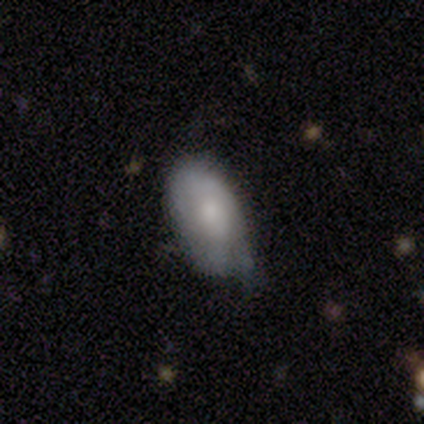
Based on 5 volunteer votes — This is likely a smooth galaxy (60%). How rounded: clearly in between (100%). Merging: likely minor disturbance (60%).